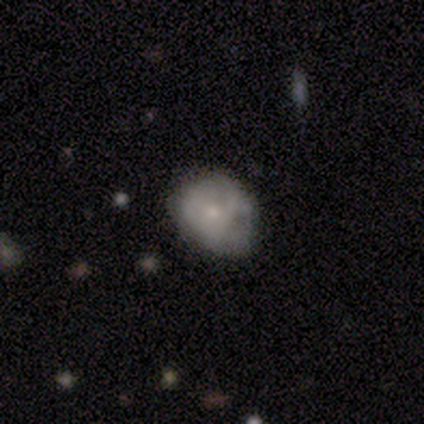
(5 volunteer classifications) smooth-or-featured: smooth: 60% | featured or disk: 40% | star or artifact: 0%
  how-rounded: round: 100% | in between: 0% | cigar-shaped: 0%
  merging: minor disturbance: 60% | none: 20% | major disturbance: 20% | merger: 0%